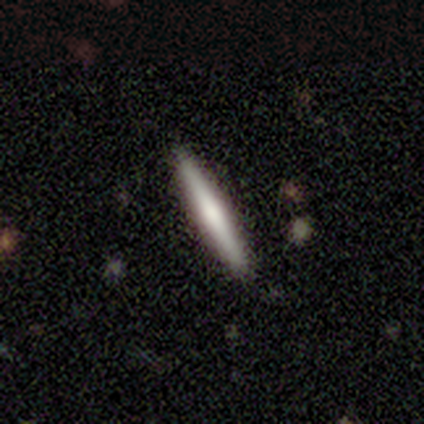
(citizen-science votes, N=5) smooth_or_featured: featured or disk (p=0.60) [alt: smooth p=0.40]
disk_edge_on: yes (p=1.00)
edge_on_bulge: rounded (p=0.67) [alt: none p=0.33]
merging: none (p=0.80) [alt: minor disturbance p=0.20]